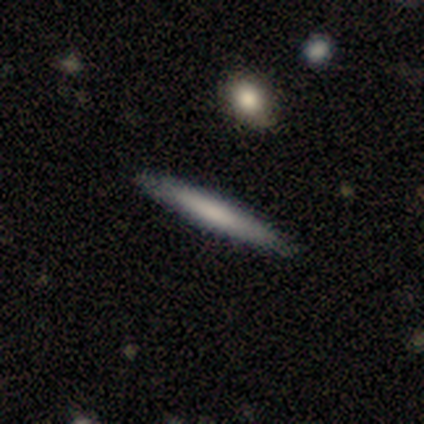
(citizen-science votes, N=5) smooth-or-featured: smooth: 60% | featured or disk: 40% | star or artifact: 0%
  how-rounded: cigar-shaped: 100% | round: 0% | in between: 0%
  merging: none: 100% | minor disturbance: 0% | major disturbance: 0% | merger: 0%